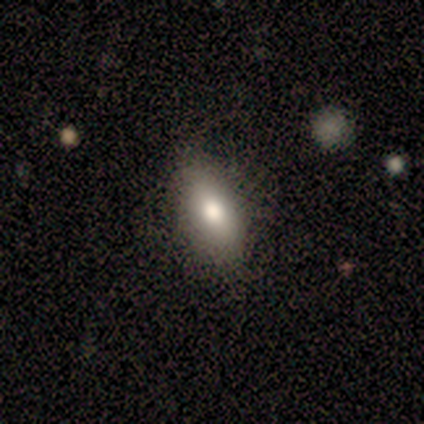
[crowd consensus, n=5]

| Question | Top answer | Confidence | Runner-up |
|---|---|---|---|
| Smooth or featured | smooth | 80% | featured or disk (20%) |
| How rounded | in between | 50% | tied: cigar-shaped (50%) |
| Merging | none | 60% | minor disturbance (40%) |